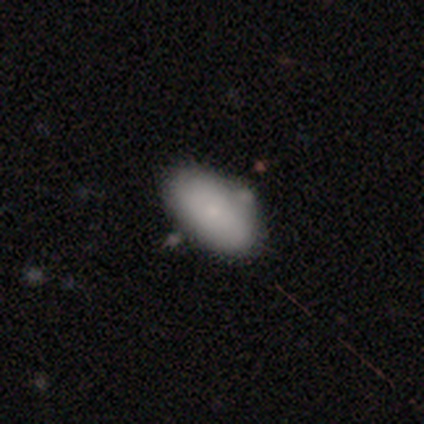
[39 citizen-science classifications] This appears to be a smooth galaxy with no disk features (77%) that is in between round and cigar-shaped (97%). Merging: none (47%).